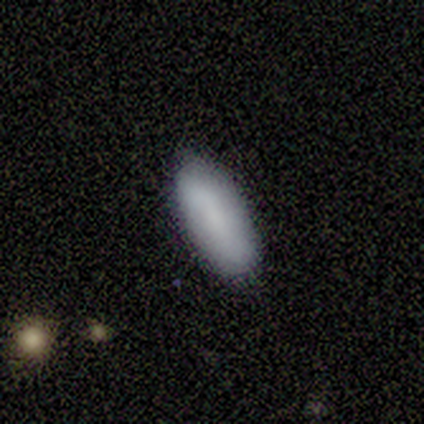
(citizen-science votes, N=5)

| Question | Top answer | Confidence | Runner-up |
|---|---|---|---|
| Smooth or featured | smooth | 80% | featured or disk (20%) |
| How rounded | in between | 50% | tied: cigar-shaped (50%) |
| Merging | none | 100% | — |